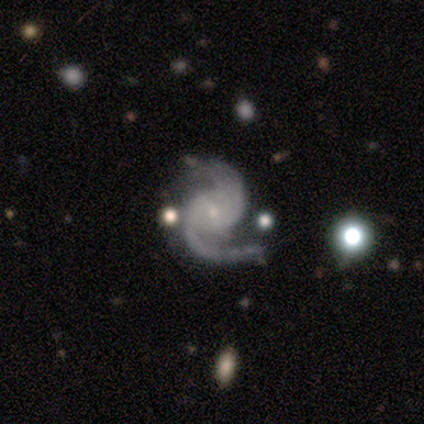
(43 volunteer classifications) A featured or disk galaxy (98%) with no bar (59%), 2 (93%) medium (59%) spiral arms (100%) and a small central bulge (83%). Merging: none (62%).